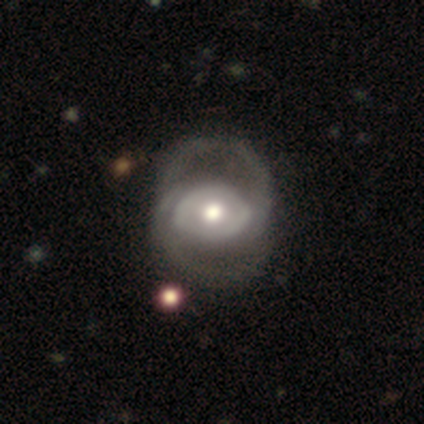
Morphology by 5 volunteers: Q: Smooth or featured?
A: featured or disk (100%)
Q: Edge-on disk?
A: no (100%)
Q: Bar?
A: no (80%); runner-up: weak (20%)
Q: Spiral arms?
A: yes (60%); runner-up: no (40%)
Q: Spiral winding?
A: tight (33%); tied with: medium (33%); loose (33%)
Q: Spiral arm count?
A: 2 (100%)
Q: Bulge size?
A: moderate (80%); runner-up: small (20%)
Q: Merging?
A: none (60%); runner-up: minor disturbance (20%)